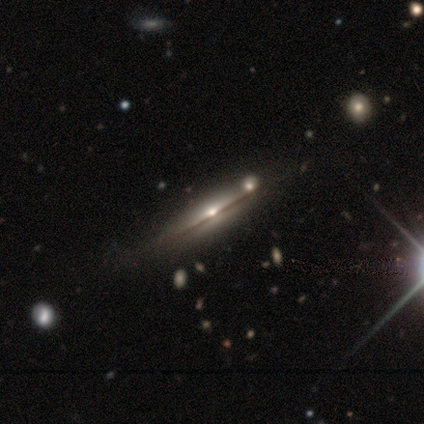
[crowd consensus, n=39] A featured or disk galaxy (74%) viewed edge-on (93%) with a rounded central bulge (81%).

Vote fractions:
- Smooth or featured? featured or disk: 74% / smooth: 13% / star or artifact: 13%
- Edge-on disk? yes: 93% / no: 7%
- Edge-on bulge? rounded: 81% / boxy: 11% / none: 7%
- Merging? none: 59% / minor disturbance: 12% / merger: 9% / major disturbance: 0%